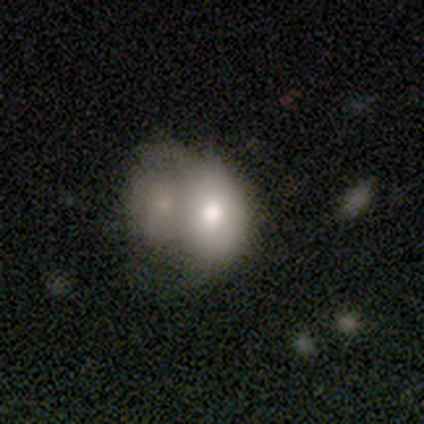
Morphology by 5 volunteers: Smooth or featured? smooth (80%)
How rounded? in between (75%)
Merging? none (40%, tied with minor disturbance)